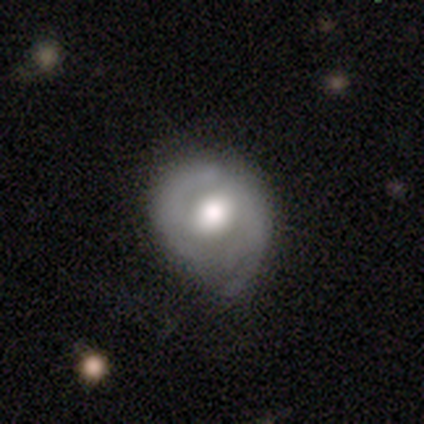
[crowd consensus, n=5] featured or disk 80%, smooth 20%, star or artifact 0%. Down the decision tree: edge-on disk — no (100%); bar — no (50%); spiral arms — yes (50%, tied with no); spiral arm count — 1 (50%, tied with can't tell); spiral winding — tight (50%, tied with loose); bulge size — moderate (75%); merging — none (40%, tied with minor disturbance).